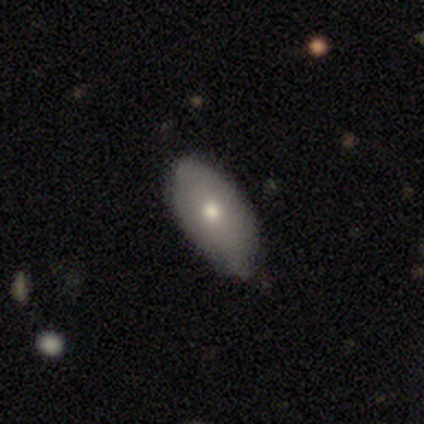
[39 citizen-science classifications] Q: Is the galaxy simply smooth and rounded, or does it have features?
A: smooth — 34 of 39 (87%).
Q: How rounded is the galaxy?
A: in between — 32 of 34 (94%).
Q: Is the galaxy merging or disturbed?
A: none — 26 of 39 (67%).